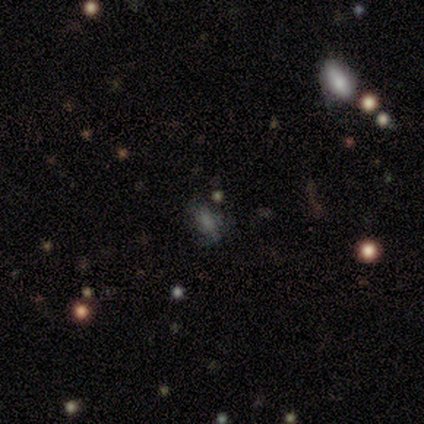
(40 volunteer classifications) Smooth or featured? smooth (35%, tied with star or artifact)
How rounded? in between (86%)
Merging? none (38%)